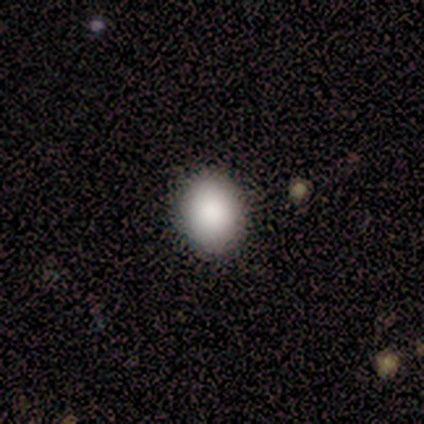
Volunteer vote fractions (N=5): smooth 100%, featured or disk 0%, star or artifact 0%. Down the decision tree: how rounded — in between (60%); merging — none (100%).